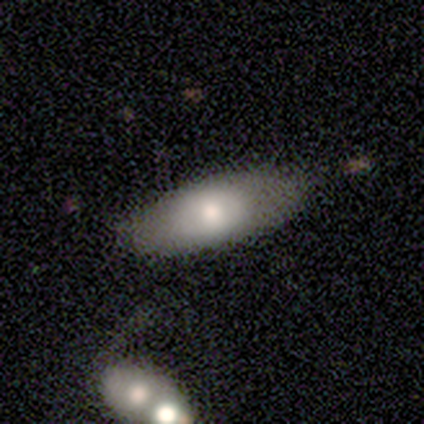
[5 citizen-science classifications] Q: Smooth or featured?
A: smooth (60%); runner-up: featured or disk (40%)
Q: How rounded?
A: in between (67%); runner-up: cigar-shaped (33%)
Q: Merging?
A: none (80%); runner-up: merger (20%)